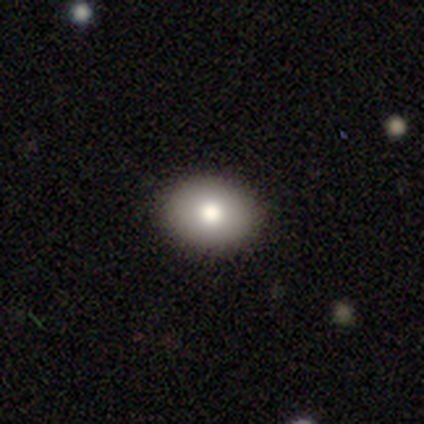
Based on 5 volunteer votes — Smooth or featured: smooth — 100%
How rounded: in between — 80% (round — 20%)
Merging: none — 100%